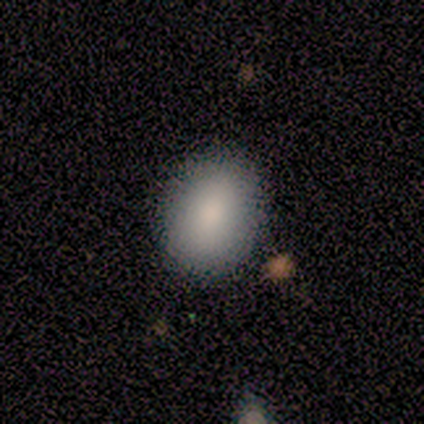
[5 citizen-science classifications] Smooth or featured: smooth — 100%
How rounded: round — 60% (in between — 40%)
Merging: none — 100%